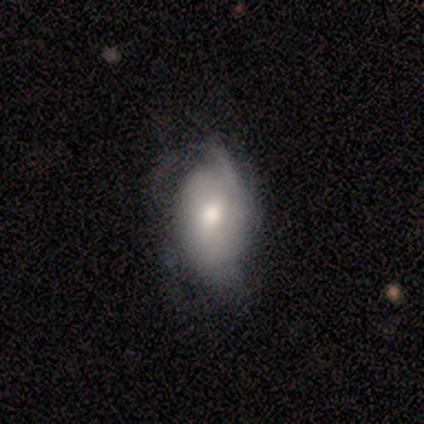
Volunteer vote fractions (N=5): Q: Smooth or featured?
A: featured or disk (80%); runner-up: smooth (20%)
Q: Edge-on disk?
A: no (100%)
Q: Bar?
A: no (75%); runner-up: weak (25%)
Q: Spiral arms?
A: yes (100%)
Q: Spiral winding?
A: medium (50%); tied with: loose (50%)
Q: Spiral arm count?
A: 1 (75%); runner-up: 3 (25%)
Q: Bulge size?
A: moderate (50%); tied with: small (50%)
Q: Merging?
A: minor disturbance (60%); runner-up: none (20%)